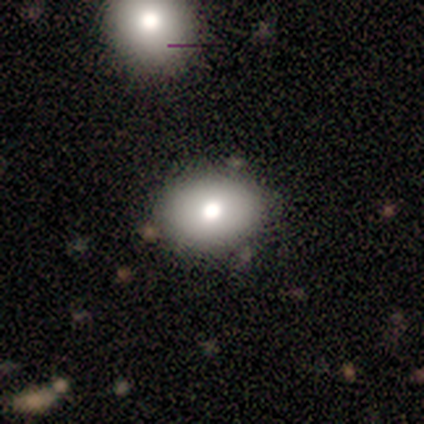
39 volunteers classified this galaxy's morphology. smooth_or_featured: smooth (p=0.74) [alt: featured or disk p=0.21]
how_rounded: in between (p=0.66) [alt: round p=0.34]
merging: none (p=0.57) [alt: merger p=0.05]